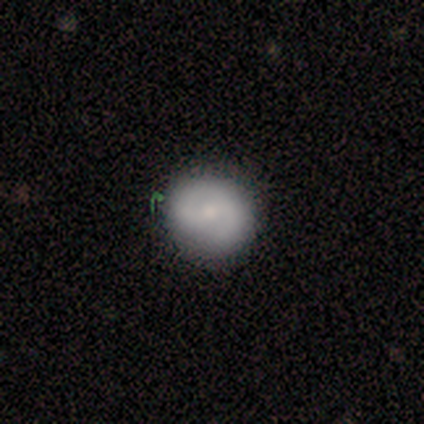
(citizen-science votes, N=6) Smooth or featured? featured or disk (67%)
Edge-on disk? no (100%)
Bar? weak (100%)
Spiral arms? yes (100%)
Spiral winding? medium (50%)
Spiral arm count? 2 (75%)
Bulge size? small (100%)
Merging? none (83%)